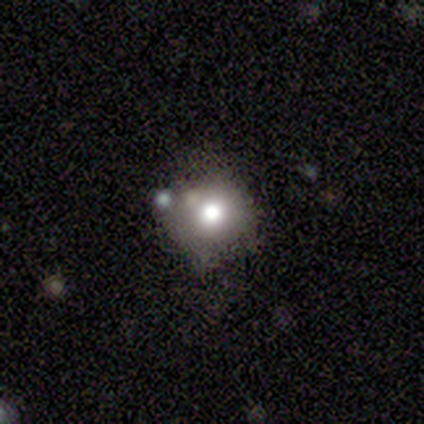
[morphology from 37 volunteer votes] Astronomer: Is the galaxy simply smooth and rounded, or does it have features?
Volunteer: smooth — 54%.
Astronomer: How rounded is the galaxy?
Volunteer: round — 90%.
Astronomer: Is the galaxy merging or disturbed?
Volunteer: none — 66%.